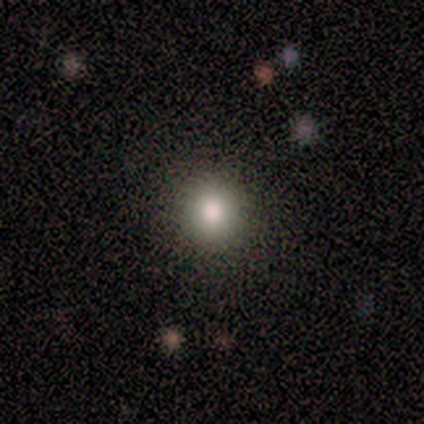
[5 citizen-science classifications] Morphology: type=smooth (80%); roundness=round (100%); merging=none (100%).